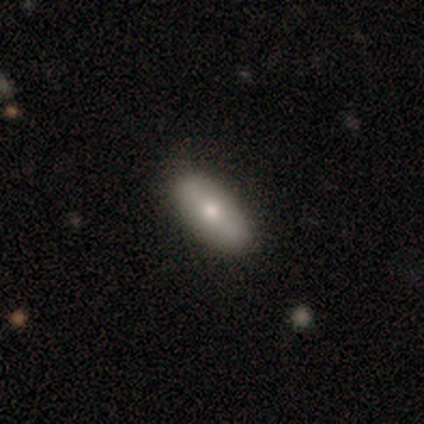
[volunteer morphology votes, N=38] type=smooth (92%); roundness=in between (71%); merging=none (84%).